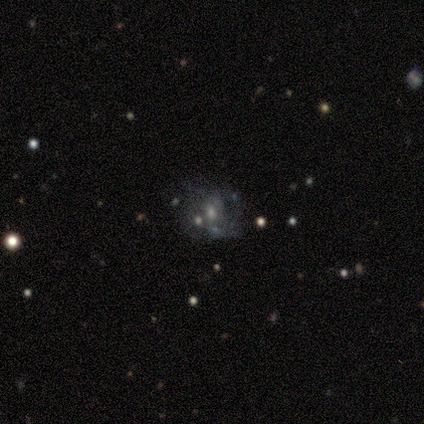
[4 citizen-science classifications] Smooth or featured? 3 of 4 (75%) said featured or disk. Edge-on disk? 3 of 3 (100%) said no. Bar? 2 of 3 (67%) said no. Spiral arms? 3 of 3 (100%) said no. Bulge size? 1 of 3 (33%, tied with moderate and small) said large. Merging? 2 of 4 (50%) said major disturbance.